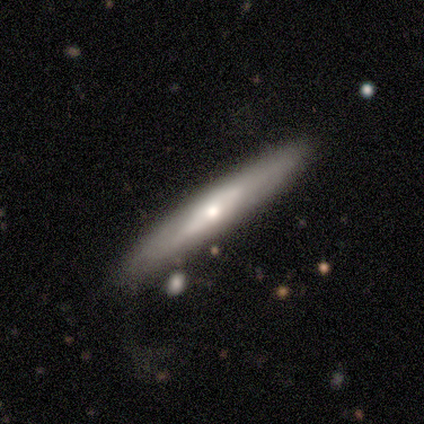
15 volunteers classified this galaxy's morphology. Q: Smooth or featured?
A: smooth (60%); runner-up: featured or disk (40%)
Q: How rounded?
A: cigar-shaped (100%)
Q: Merging?
A: none (73%); runner-up: major disturbance (20%)